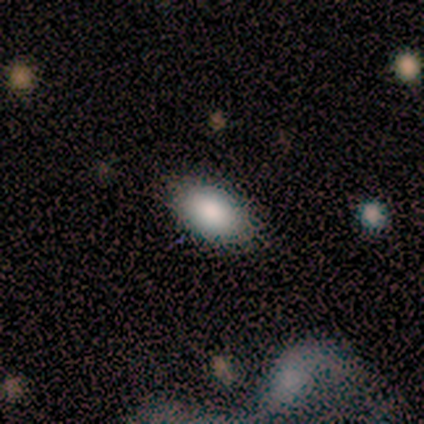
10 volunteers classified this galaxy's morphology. This appears to be a smooth galaxy with no disk features (90%) that is in between round and cigar-shaped (100%). Merging: none (100%).